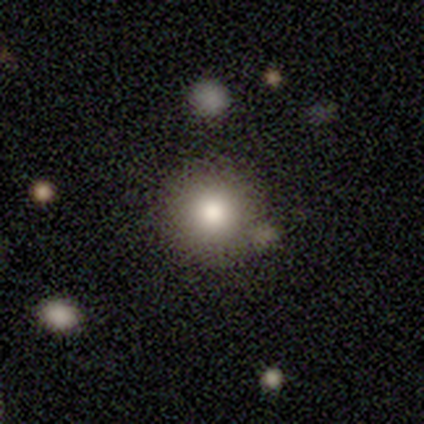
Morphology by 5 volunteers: This is clearly a smooth galaxy (80%). How rounded: clearly round (100%). Merging: marginally none (40%).